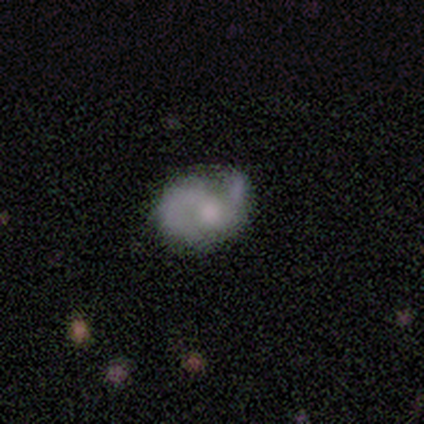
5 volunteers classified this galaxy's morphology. smooth_or_featured: smooth (p=0.40) [tied with: featured or disk p=0.40]
how_rounded: in between (p=1.00)
merging: none (p=0.50) [tied with: minor disturbance p=0.50]